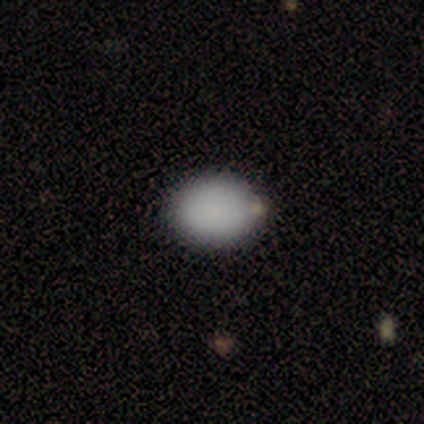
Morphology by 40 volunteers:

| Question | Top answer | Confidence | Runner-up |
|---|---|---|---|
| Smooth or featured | smooth | 92% | star or artifact (5%) |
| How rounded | in between | 70% | round (30%) |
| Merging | none | 61% | minor disturbance (13%) |